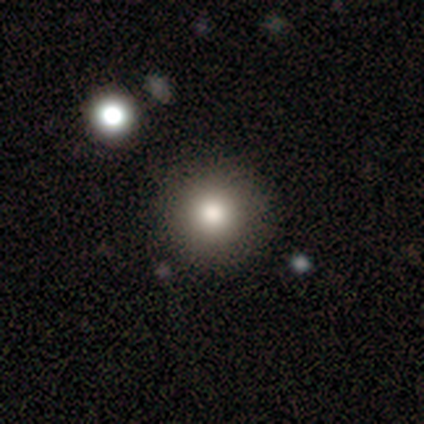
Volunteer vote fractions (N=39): A smooth galaxy with no disk features (85%) that is round (94%). Merging: none (59%).